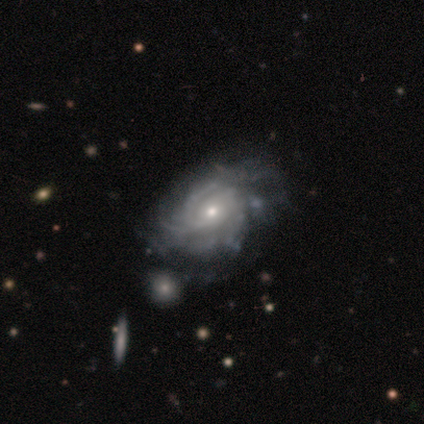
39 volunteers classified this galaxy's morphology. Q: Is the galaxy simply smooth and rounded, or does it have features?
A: featured or disk — 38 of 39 (97%).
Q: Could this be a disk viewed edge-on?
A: no — 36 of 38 (95%).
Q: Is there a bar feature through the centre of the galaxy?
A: no — 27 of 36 (75%).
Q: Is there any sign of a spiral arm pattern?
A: yes — 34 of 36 (94%).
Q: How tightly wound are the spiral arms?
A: tight — 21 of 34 (62%).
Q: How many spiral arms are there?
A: can't tell — 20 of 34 (59%).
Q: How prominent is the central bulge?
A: small — 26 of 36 (72%).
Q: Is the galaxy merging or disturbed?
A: none — 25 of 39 (64%).